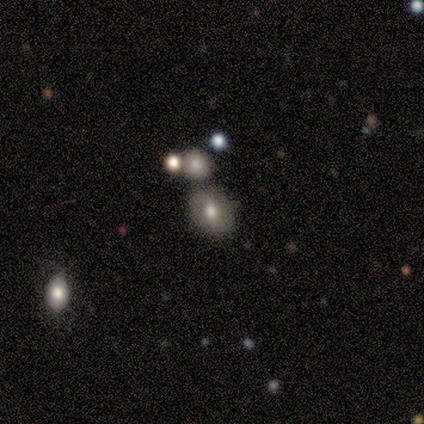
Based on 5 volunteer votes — smooth_or_featured: smooth (p=0.60) [alt: featured or disk p=0.20]
how_rounded: round (p=0.67) [alt: in between p=0.33]
merging: none (p=0.75) [alt: minor disturbance p=0.25]